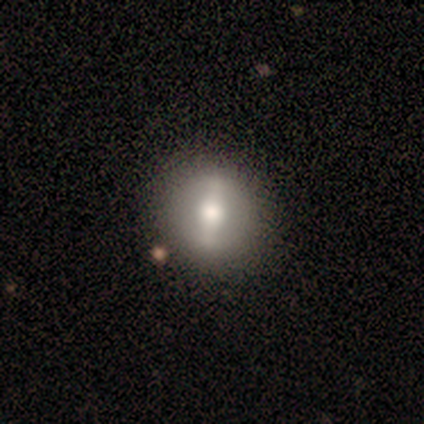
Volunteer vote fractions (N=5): A smooth galaxy with no disk features (40%, tied with featured or disk) that is round (100%). Merging: none (100%).